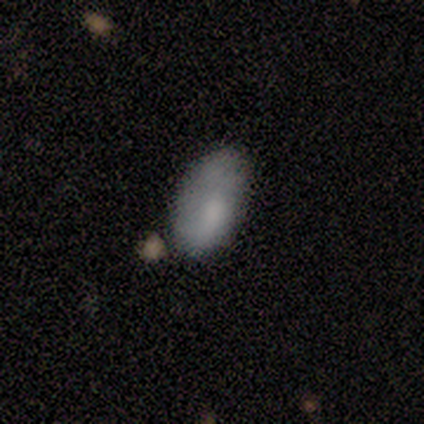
smooth_or_featured: featured or disk (p=0.60) [alt: smooth p=0.40]
disk_edge_on: no (p=1.00)
bar: no (p=0.67) [alt: weak p=0.33]
has_spiral_arms: no (p=0.67) [alt: yes p=0.33]
bulge_size: small (p=0.67) [alt: none p=0.33]
merging: none (p=0.60) [alt: minor disturbance p=0.20]